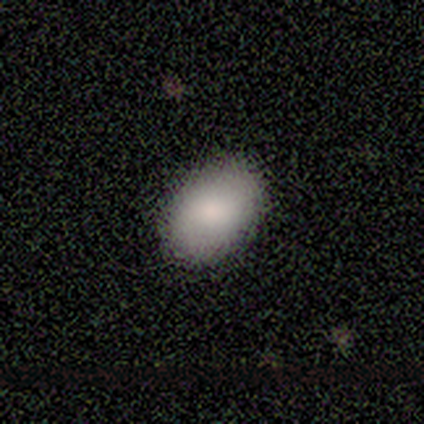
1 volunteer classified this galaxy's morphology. This is clearly a smooth galaxy (100%). How rounded: clearly in between (100%). Merging: clearly none (100%).